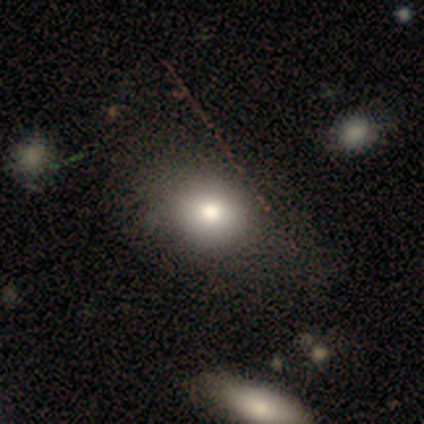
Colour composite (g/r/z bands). It shows a smooth galaxy with no disk features (80%) that is round (50%, tied with in between). Merging: none (60%).